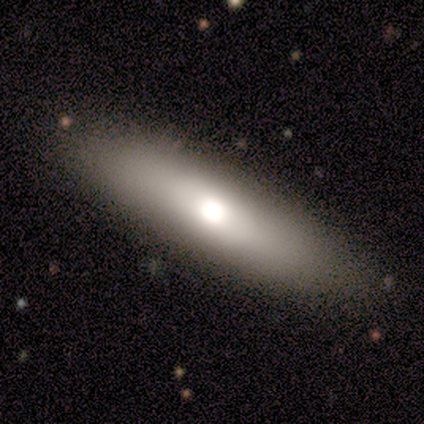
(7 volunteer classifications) smooth-or-featured: smooth: 57% | featured or disk: 43% | star or artifact: 0%
  how-rounded: cigar-shaped: 75% | in between: 25% | round: 0%
  merging: none: 71% | major disturbance: 14% | merger: 14% | minor disturbance: 0%